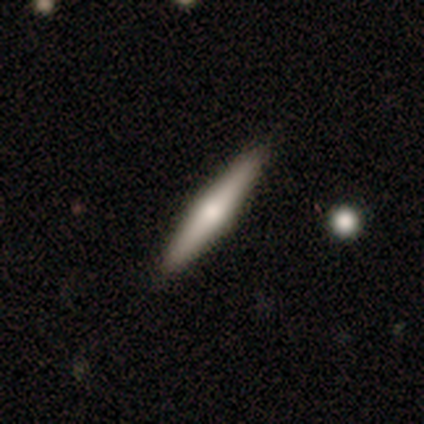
Smooth or featured?
  - featured or disk: 60% *
  - smooth: 40%
  - star or artifact: 0%
Edge-on disk?
  - yes: 100% *
  - no: 0%
Edge-on bulge?
  - rounded: 100% *
  - boxy: 0%
  - none: 0%
Merging?
  - none: 80% *
  - minor disturbance: 20%
  - major disturbance: 0%
  - merger: 0%